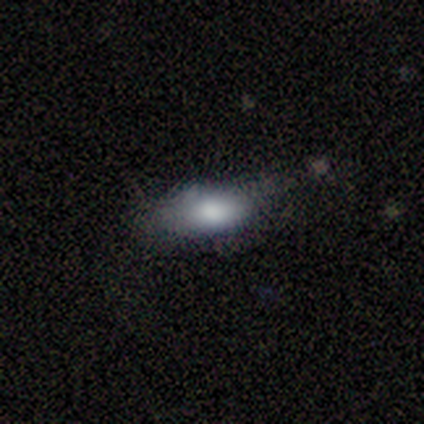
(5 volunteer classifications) smooth 100%, featured or disk 0%, star or artifact 0%. Down the decision tree: how rounded — in between (100%); merging — none (80%).